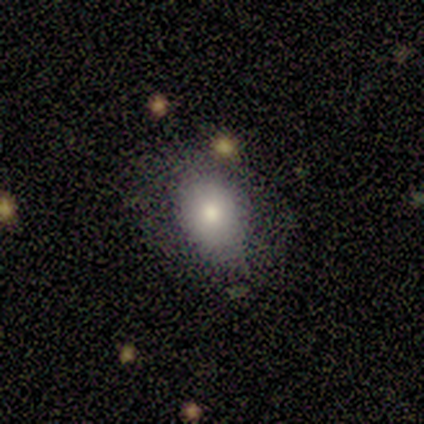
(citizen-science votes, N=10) Smooth or featured? 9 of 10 (90%) said smooth. How rounded? 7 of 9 (78%) said in between. Merging? 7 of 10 (70%) said none.